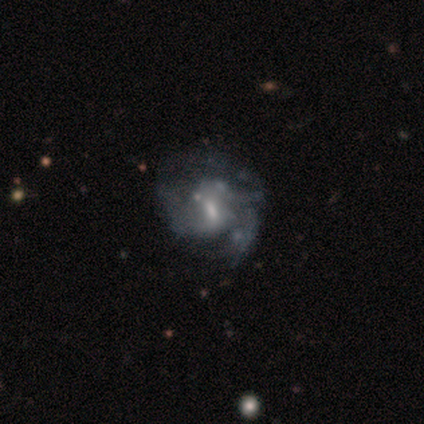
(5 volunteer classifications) smooth-or-featured: featured or disk: 80% | smooth: 20% | star or artifact: 0%
  disk-edge-on: no: 100% | yes: 0%
    bar: weak: 100% | strong: 0% | no: 0%
    has-spiral-arms: yes: 75% | no: 25%
      spiral-winding: loose: 67% | medium: 33% | tight: 0%
      spiral-arm-count: can't tell: 67% | 4: 33% | 1: 0% | 2: 0% | 3: 0% | more than 4: 0%
    bulge-size: moderate: 50% (tied) | small: 50% (tied) | dominant: 0% | large: 0% | none: 0%
  merging: major disturbance: 60% | none: 20% | minor disturbance: 20% | merger: 0%